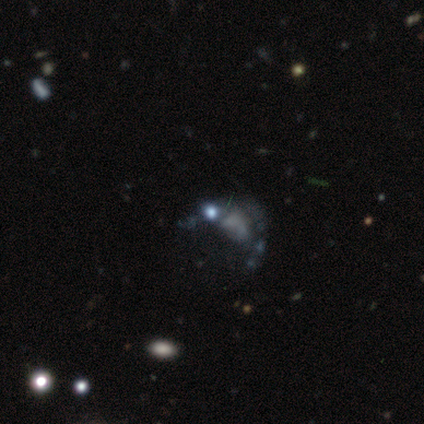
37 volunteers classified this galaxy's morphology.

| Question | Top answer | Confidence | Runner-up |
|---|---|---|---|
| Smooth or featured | featured or disk | 49% | star or artifact (32%) |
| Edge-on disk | no | 100% | — |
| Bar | no | 89% | weak (11%) |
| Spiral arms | no | 89% | yes (11%) |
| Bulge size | none | 67% | small (33%) |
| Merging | major disturbance | 48% | none (28%) |